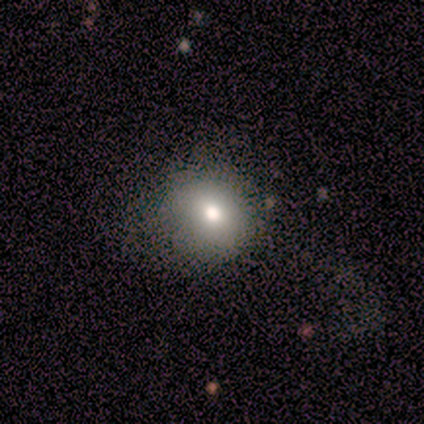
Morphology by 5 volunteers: Overall: smooth (60%; star or artifact 40%). How rounded: in between (67%; round 33%). Merging: none (33%, tied with minor disturbance and major disturbance).